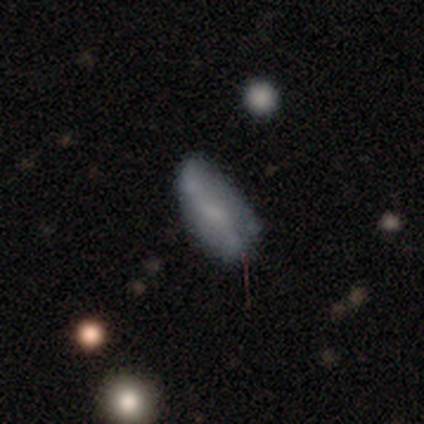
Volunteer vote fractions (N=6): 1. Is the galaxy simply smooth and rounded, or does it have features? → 67% smooth, 33% featured or disk, 0% star or artifact.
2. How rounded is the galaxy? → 75% in between, 25% cigar-shaped, 0% round.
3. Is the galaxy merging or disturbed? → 67% none, 33% minor disturbance, 0% major disturbance, 0% merger.